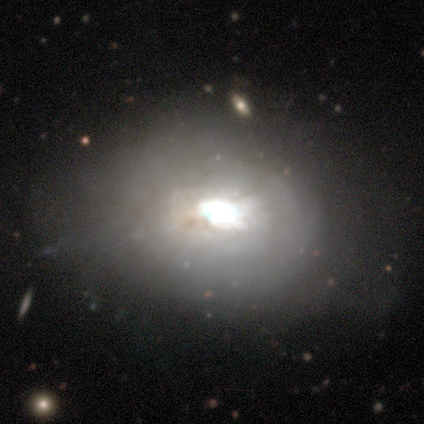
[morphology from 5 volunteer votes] Smooth or featured? 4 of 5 (80%) said featured or disk. Edge-on disk? 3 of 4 (75%) said no. Bar? 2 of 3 (67%) said weak. Spiral arms? 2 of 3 (67%) said yes. Spiral winding? 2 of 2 (100%) said tight. Spiral arm count? 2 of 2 (100%) said can't tell. Bulge size? 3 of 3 (100%) said large. Merging? 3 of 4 (75%) said none.